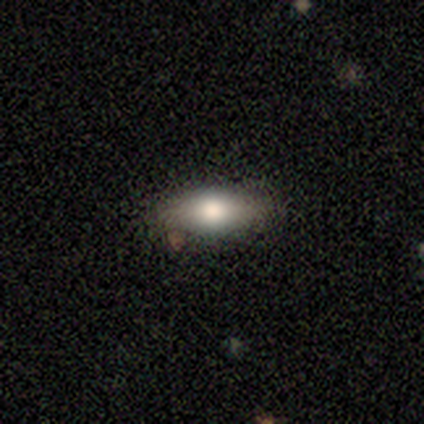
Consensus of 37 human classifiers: This is clearly a smooth galaxy (89%). How rounded: possibly in between (52%). Merging: likely none (74%).